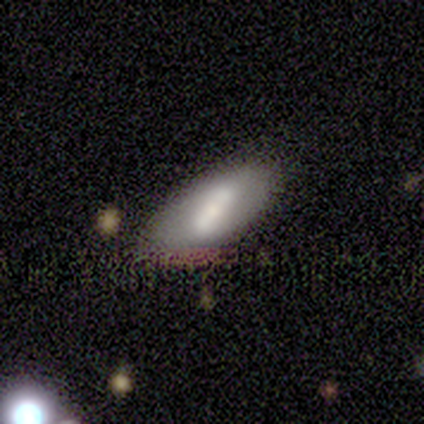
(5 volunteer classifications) This is clearly a smooth galaxy (80%). How rounded: likely in between (75%). Merging: marginally none (40%, tied with minor disturbance).